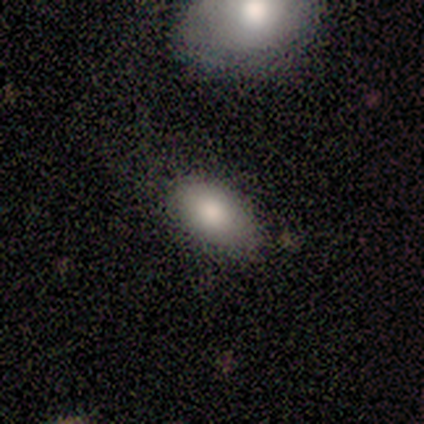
A smooth galaxy with no disk features (60%) that is in between round and cigar-shaped (100%).

Vote fractions:
- Smooth or featured? smooth: 60% / featured or disk: 20% / star or artifact: 20%
- How rounded? in between: 100% / round: 0% / cigar-shaped: 0%
- Merging? none: 100% / minor disturbance: 0% / major disturbance: 0% / merger: 0%